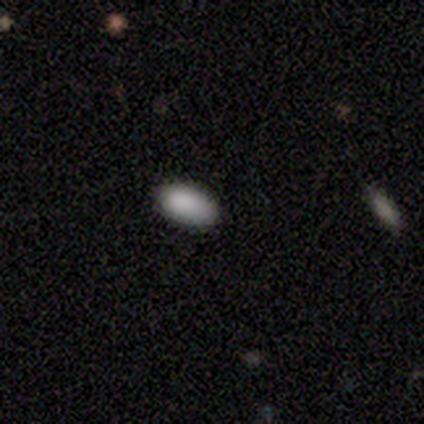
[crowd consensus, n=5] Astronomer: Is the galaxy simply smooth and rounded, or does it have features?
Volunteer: smooth — 100%.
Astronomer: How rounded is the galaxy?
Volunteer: in between — 100%.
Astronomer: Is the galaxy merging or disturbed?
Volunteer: none — 80%.